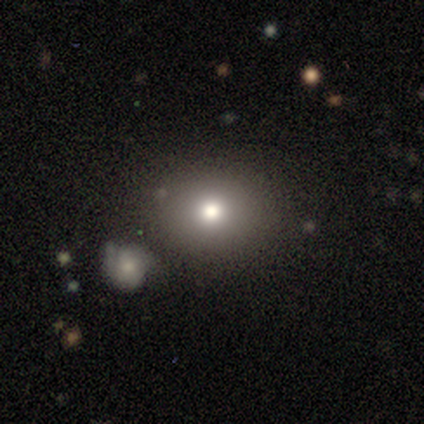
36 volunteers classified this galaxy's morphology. smooth-or-featured: smooth: 61% | star or artifact: 22% | featured or disk: 17%
  how-rounded: round: 64% | in between: 36% | cigar-shaped: 0%
  merging: none: 82% | minor disturbance: 14% | major disturbance: 4% | merger: 0%